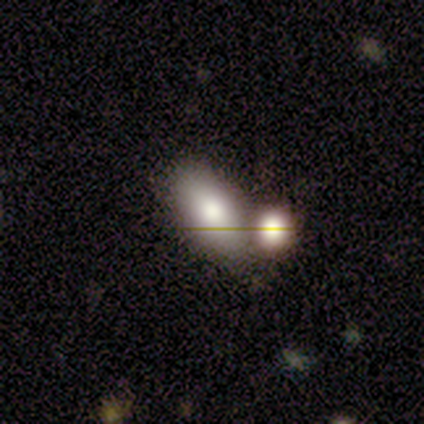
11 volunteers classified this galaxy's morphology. type=smooth (73%); roundness=in between (100%); merging=merger (70%).